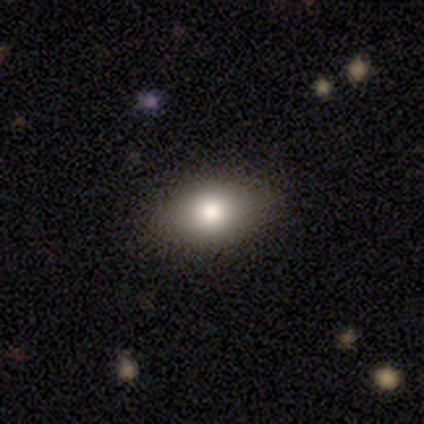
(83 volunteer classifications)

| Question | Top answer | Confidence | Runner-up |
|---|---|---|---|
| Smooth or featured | smooth | 75% | star or artifact (13%) |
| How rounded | in between | 84% | round (15%) |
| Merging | none | 88% | minor disturbance (11%) |